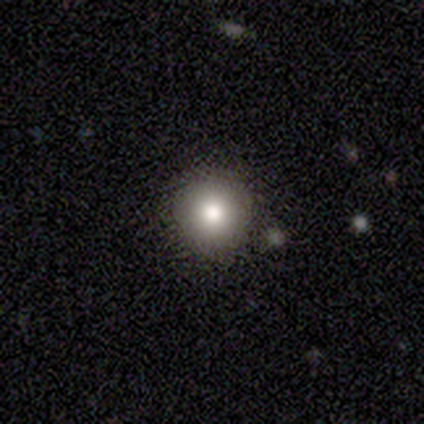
Smooth or featured: smooth — 74% (star or artifact — 18%)
How rounded: round — 97% (in between — 3%)
Merging: none — 94% (minor disturbance — 6%)